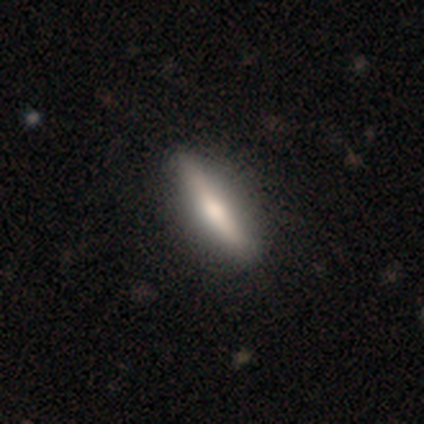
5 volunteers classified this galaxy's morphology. type=smooth (80%); roundness=in between (50%); merging=none (80%).